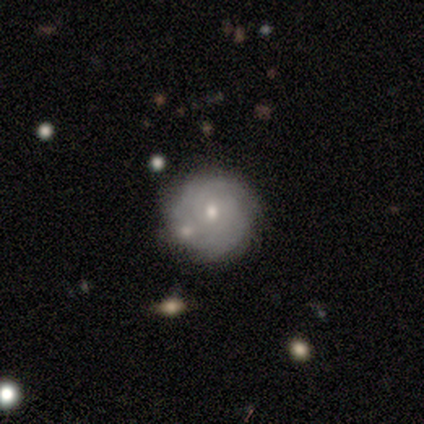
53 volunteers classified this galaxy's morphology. This appears to be a featured or disk galaxy (72%) with no bar (87%), tight (86%) spiral arms (76%) and a moderate central bulge (53%). Merging: none (74%).